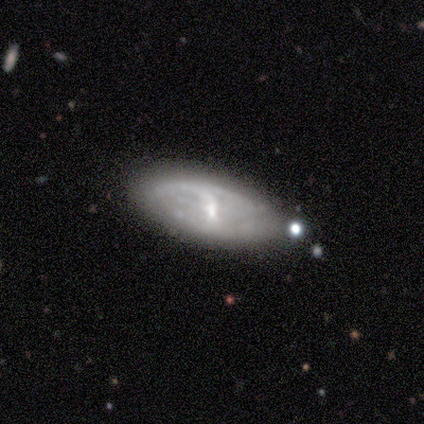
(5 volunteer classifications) Smooth or featured? featured or disk (60%)
Edge-on disk? no (100%)
Bar? weak (67%)
Spiral arms? yes (100%)
Spiral winding? tight (33%, tied with medium and loose)
Spiral arm count? 2 (67%)
Bulge size? small (67%)
Merging? none (60%)